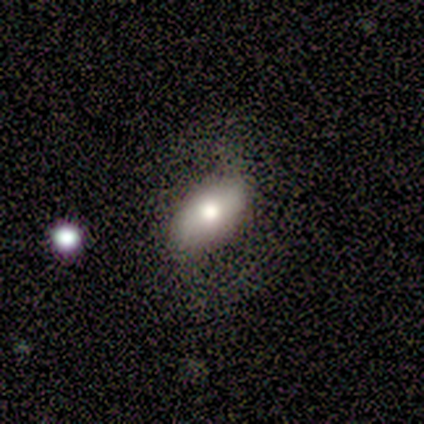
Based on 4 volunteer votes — Smooth or featured?
  - smooth: 75% *
  - featured or disk: 25%
  - star or artifact: 0%
How rounded?
  - in between: 100% *
  - round: 0%
  - cigar-shaped: 0%
Merging?
  - none: 50% *
  - minor disturbance: 25%
  - major disturbance: 25%
  - merger: 0%